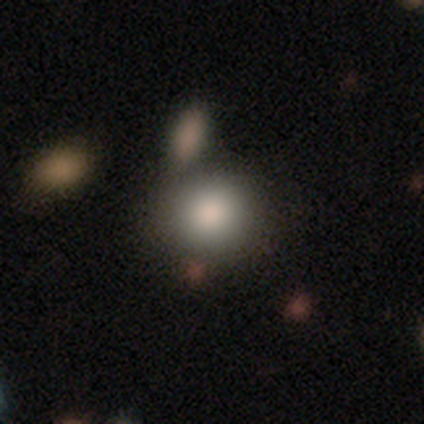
smooth_or_featured: smooth (p=1.00)
how_rounded: round (p=1.00)
merging: none (p=1.00)